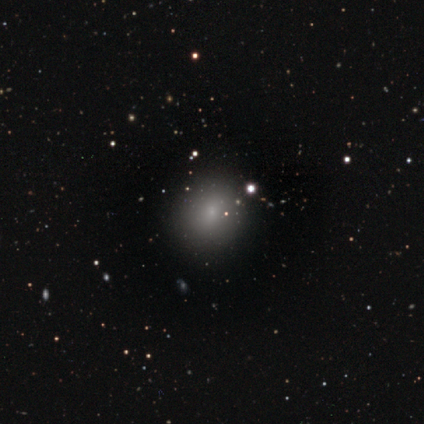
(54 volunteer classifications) This is likely a smooth galaxy (70%). How rounded: likely round (79%). Merging: clearly none (86%).